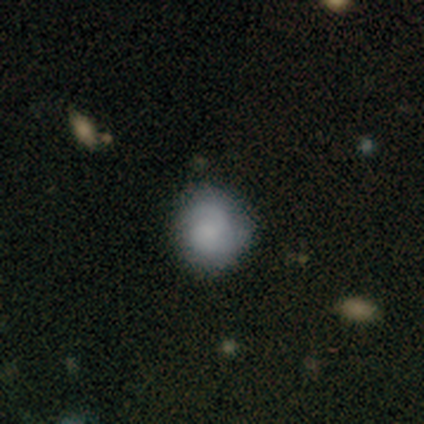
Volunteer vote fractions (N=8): Morphology: type=smooth (62%); roundness=round (60%); merging=none (62%).